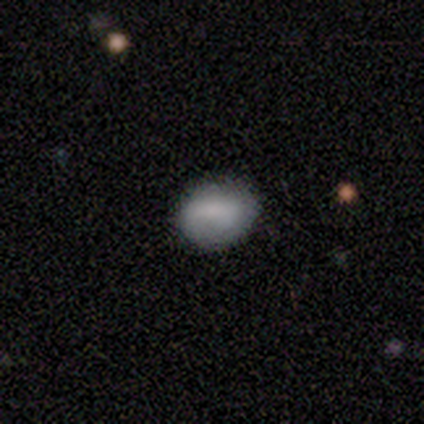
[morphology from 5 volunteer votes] This appears to be a smooth galaxy with no disk features (80%) that is in between round and cigar-shaped (100%). Merging: none (100%).